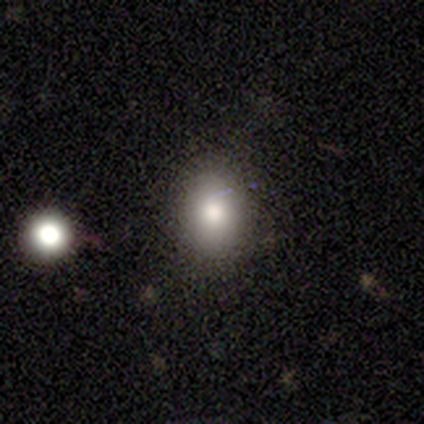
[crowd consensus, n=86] Smooth or featured: smooth — 78% (star or artifact — 12%)
How rounded: in between — 51% (round — 48%)
Merging: none — 86% (minor disturbance — 9%)